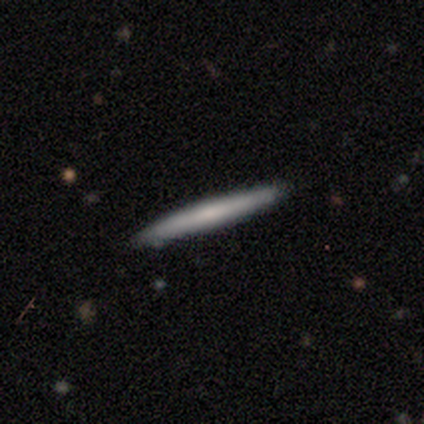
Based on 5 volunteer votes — Consensus on every question: smooth or featured — smooth (100%); how rounded — cigar-shaped (100%); merging — none (100%).